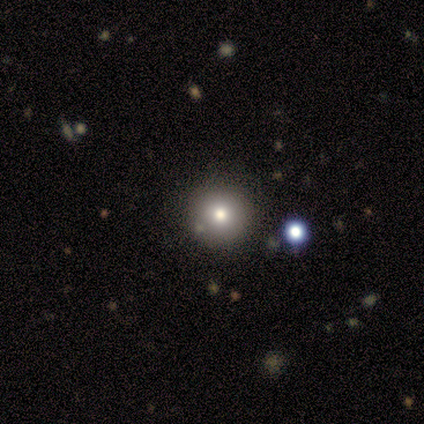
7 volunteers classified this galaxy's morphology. Q: Smooth or featured?
A: smooth (57%); runner-up: star or artifact (29%)
Q: How rounded?
A: round (100%)
Q: Merging?
A: none (100%)